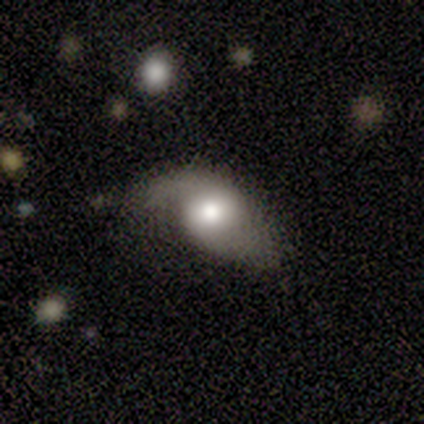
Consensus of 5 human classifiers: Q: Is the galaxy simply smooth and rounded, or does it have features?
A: featured or disk — 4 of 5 (80%).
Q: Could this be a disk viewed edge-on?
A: no — 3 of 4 (75%).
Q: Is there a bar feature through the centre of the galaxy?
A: no — 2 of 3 (67%).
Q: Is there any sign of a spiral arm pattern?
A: yes — 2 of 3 (67%).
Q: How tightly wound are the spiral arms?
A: tight — 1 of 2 (50%, tied with loose).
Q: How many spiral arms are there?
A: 2 — 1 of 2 (50%, tied with can't tell).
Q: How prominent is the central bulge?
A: moderate — 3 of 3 (100%).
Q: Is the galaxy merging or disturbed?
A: minor disturbance — 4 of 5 (80%).